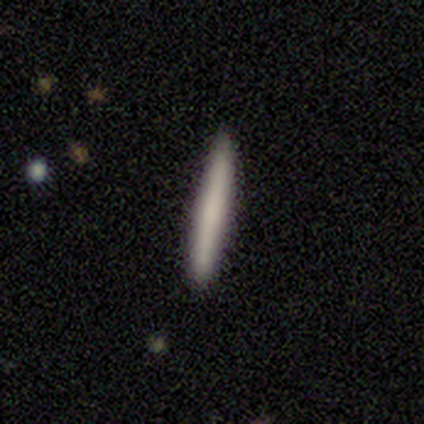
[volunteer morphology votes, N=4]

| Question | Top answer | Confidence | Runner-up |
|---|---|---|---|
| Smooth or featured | smooth | 50% | tied: featured or disk (50%) |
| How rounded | cigar-shaped | 100% | — |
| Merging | none | 100% | — |